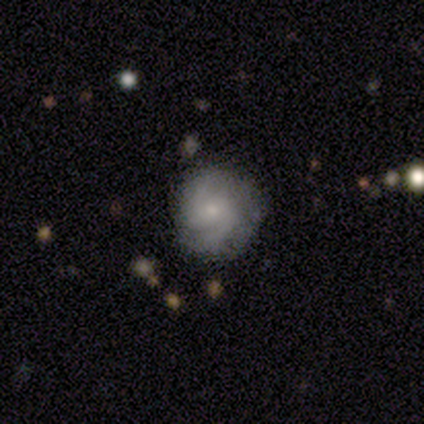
A featured or disk galaxy (60%) with no bar (67%), 2 (67%) medium (100%) spiral arms (100%) and a small central bulge (67%). Merging: none (100%).